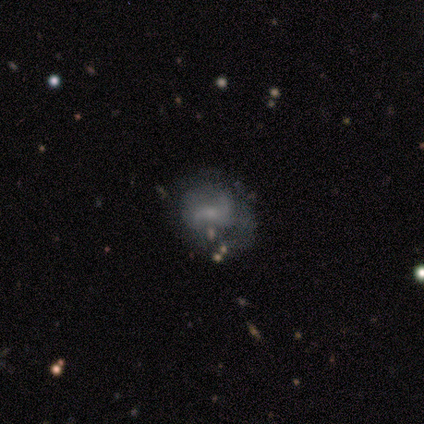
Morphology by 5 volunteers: Volunteers were most divided on "merging" (2-way tie): none: 40%, minor disturbance: 40%, major disturbance: 20%, merger: 0%. More confident: smooth or featured — featured or disk (100%); edge-on disk — no (100%); spiral arms — yes (80%); spiral arm count — 2 (75%); bar — no (60%); bulge size — small (60%); spiral winding — loose (50%).